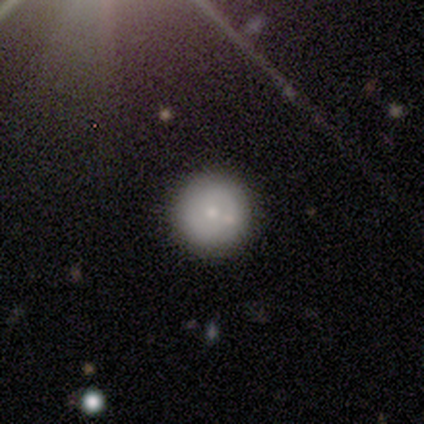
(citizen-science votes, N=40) Smooth or featured? smooth (80%)
How rounded? round (100%)
Merging? none (69%)